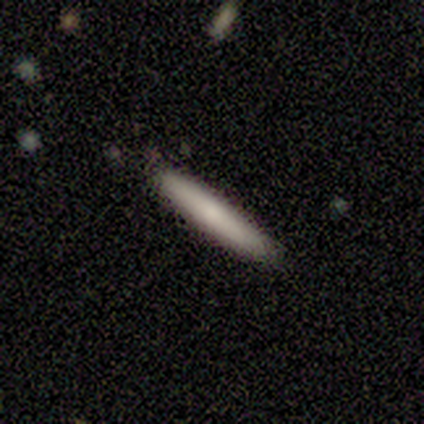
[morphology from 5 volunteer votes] This appears to be a smooth galaxy with no disk features (80%) that is cigar-shaped (100%). Merging: none (100%).